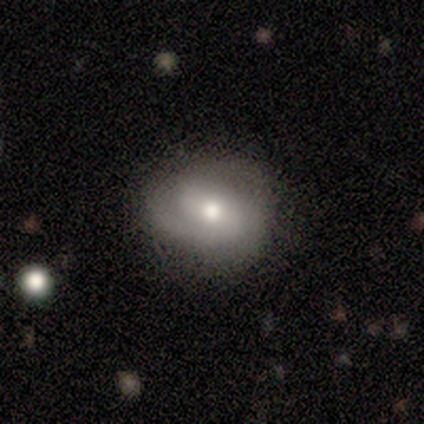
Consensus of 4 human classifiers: This appears to be a smooth galaxy with no disk features (50%, tied with featured or disk) that is round (50%, tied with in between). Merging: none (100%).